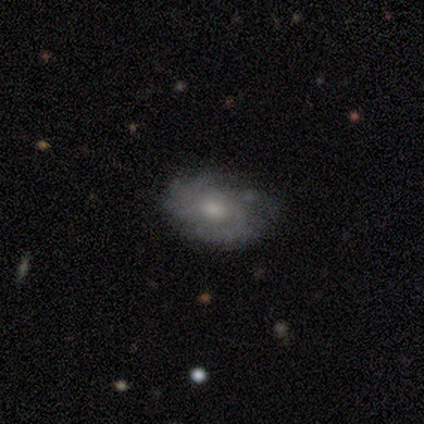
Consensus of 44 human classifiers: smooth_or_featured: featured or disk (p=0.84) [alt: smooth p=0.14]
disk_edge_on: no (p=1.00)
bar: no (p=0.86) [alt: weak p=0.08]
has_spiral_arms: yes (p=0.86) [alt: no p=0.14]
spiral_winding: tight (p=0.62) [alt: medium p=0.28]
spiral_arm_count: 2 (p=0.38) [alt: 4 p=0.22]
bulge_size: moderate (p=0.51) [alt: small p=0.32]
merging: none (p=0.58) [alt: minor disturbance p=0.33]